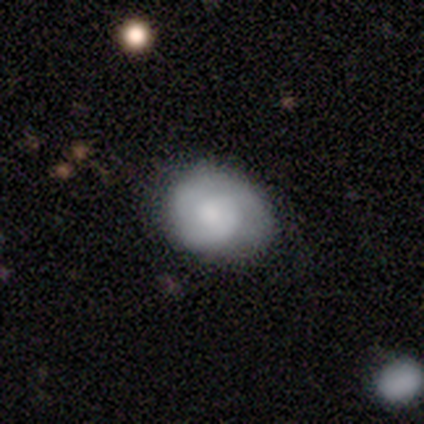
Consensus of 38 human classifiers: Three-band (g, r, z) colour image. It shows a smooth galaxy with no disk features (61%) that is round (61%). Merging: none (53%).